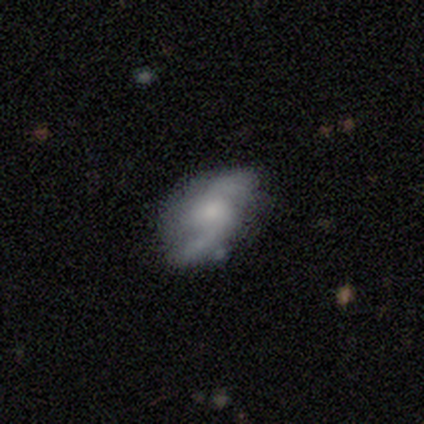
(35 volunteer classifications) Smooth or featured? 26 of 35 (74%) said featured or disk. Edge-on disk? 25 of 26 (96%) said no. Bar? 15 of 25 (60%) said no. Spiral arms? 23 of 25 (92%) said yes. Spiral winding? 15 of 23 (65%) said loose. Spiral arm count? 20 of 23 (87%) said 2. Bulge size? 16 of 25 (64%) said moderate. Merging? 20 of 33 (61%) said none.